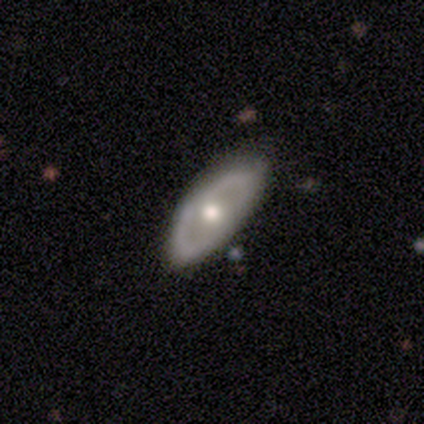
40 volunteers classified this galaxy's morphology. This appears to be a featured or disk galaxy (70%) with no bar (96%), no spiral arms (91%) and a moderate central bulge (70%). Merging: none (80%).